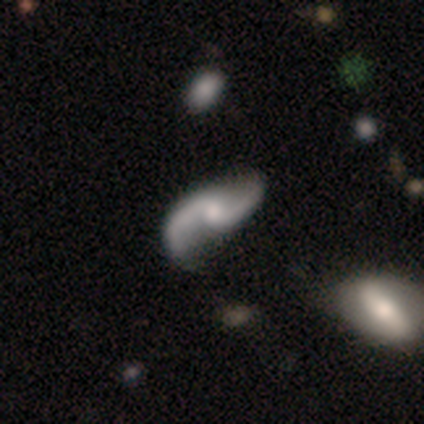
A featured or disk galaxy (100%) with no bar (53%), 2 (97%) loose (79%) spiral arms (100%) and a moderate central bulge (42%). Merging: none (39%).